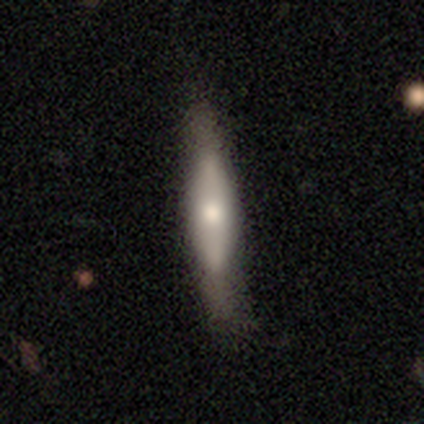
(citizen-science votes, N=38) Overall: smooth (45%, tied with featured or disk). How rounded: cigar-shaped (94%). Merging: none (59%; minor disturbance 24%).